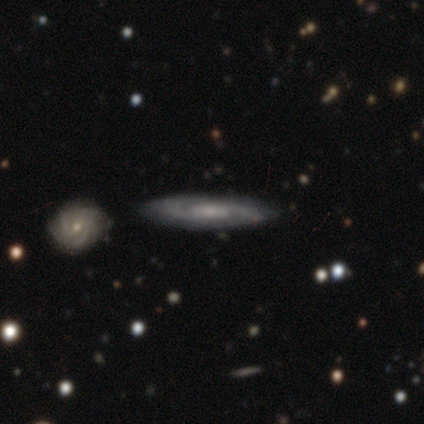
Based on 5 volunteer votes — Smooth or featured? featured or disk (100%)
Edge-on disk? no (100%)
Bar? no (80%)
Spiral arms? yes (80%)
Spiral winding? tight (75%)
Spiral arm count? 2 (75%)
Bulge size? moderate (60%)
Merging? none (100%)